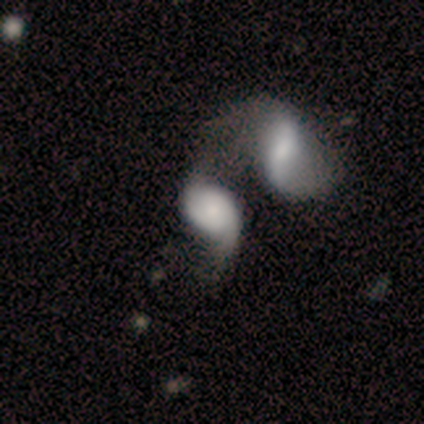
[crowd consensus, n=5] This is clearly a featured or disk galaxy (80%). It is likely not viewed edge-on (75%). Bar: likely no (67%). Spiral arm pattern: likely yes (67%). Spiral arm count: clearly 2 (100%). Spiral winding: clearly medium (100%). Central bulge: marginally moderate (33%, tied with small and none). Merging: clearly merger (100%).